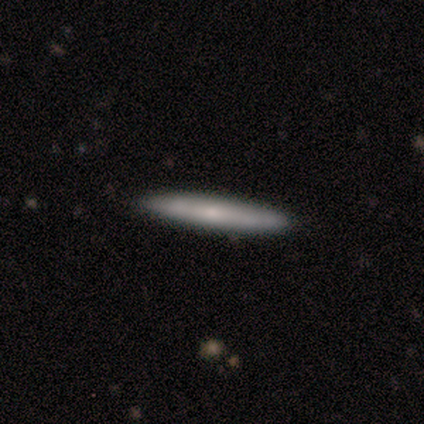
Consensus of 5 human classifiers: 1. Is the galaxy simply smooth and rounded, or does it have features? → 80% smooth, 20% featured or disk, 0% star or artifact.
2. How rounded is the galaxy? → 100% cigar-shaped, 0% round, 0% in between.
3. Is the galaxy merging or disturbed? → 100% none, 0% minor disturbance, 0% major disturbance, 0% merger.